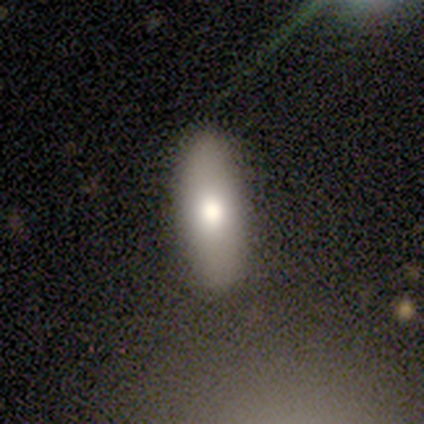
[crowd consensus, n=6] This is likely a smooth galaxy (67%). How rounded: clearly in between (100%). Merging: clearly none (100%).